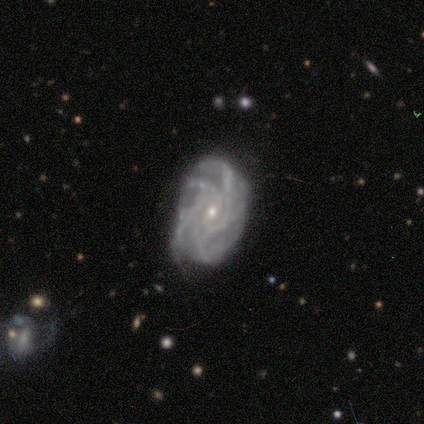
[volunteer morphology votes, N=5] Volunteers were most divided on "bar": no: 60%, weak: 40%, strong: 0%. More confident: smooth or featured — featured or disk (100%); edge-on disk — no (100%); spiral arms — yes (100%); merging — none (100%); spiral winding — tight (80%); bulge size — small (80%); spiral arm count — more than 4 (60%).